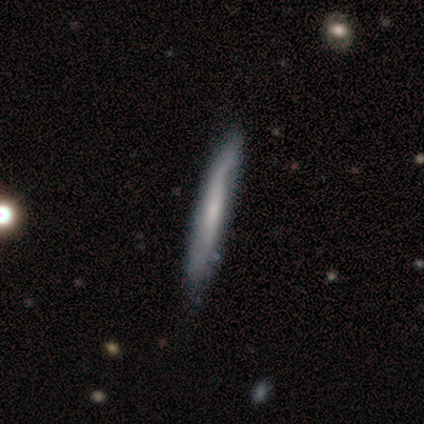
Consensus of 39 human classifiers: Smooth or featured: featured or disk — 59% (smooth — 36%)
Edge-on disk: yes — 78% (no — 22%)
Edge-on bulge: none — 67% (rounded — 22%)
Merging: none — 59% (minor disturbance — 16%)